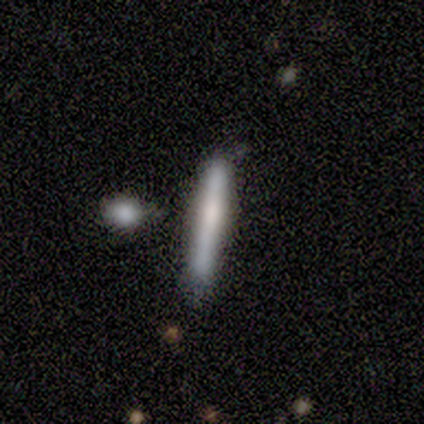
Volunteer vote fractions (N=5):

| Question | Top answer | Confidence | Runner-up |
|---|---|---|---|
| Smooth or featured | smooth | 80% | featured or disk (20%) |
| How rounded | cigar-shaped | 100% | — |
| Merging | none | 80% | minor disturbance (20%) |